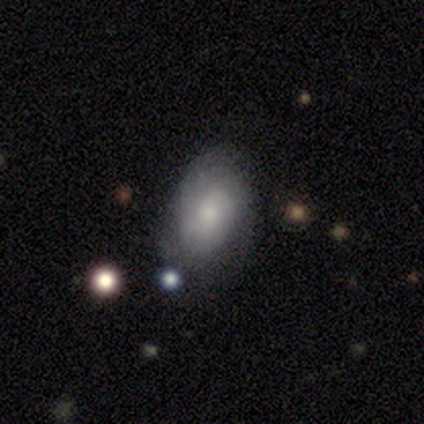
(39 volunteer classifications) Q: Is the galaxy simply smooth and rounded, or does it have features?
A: smooth — 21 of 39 (54%).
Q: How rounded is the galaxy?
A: in between — 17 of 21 (81%).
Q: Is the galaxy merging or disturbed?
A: none — 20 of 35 (57%).